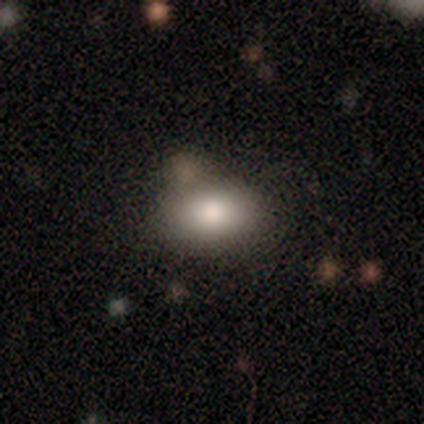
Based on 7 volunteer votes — Smooth or featured? 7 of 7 (100%) said smooth. How rounded? 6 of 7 (86%) said in between. Merging? 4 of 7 (57%) said none.